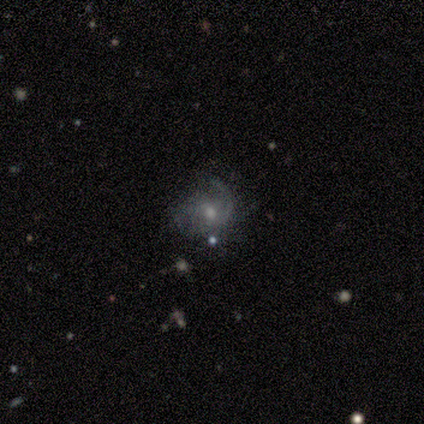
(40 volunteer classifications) Morphology: type=featured or disk (68%); edge-on=no (100%); bar=no (78%); spiral arms=yes (89%); winding=medium (54%); arm count=can't tell (42%); bulge=moderate (59%); merging=none (49%).